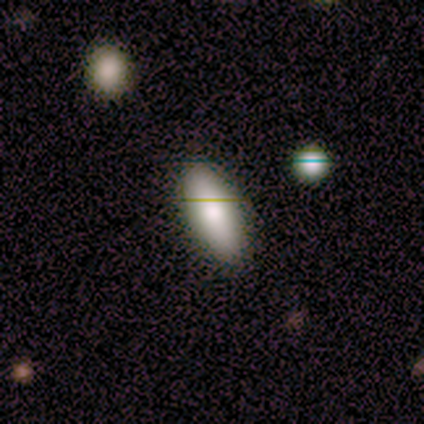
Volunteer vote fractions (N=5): Smooth or featured?
  - smooth: 80% *
  - star or artifact: 20%
  - featured or disk: 0%
How rounded?
  - in between: 100% *
  - round: 0%
  - cigar-shaped: 0%
Merging?
  - none: 100% *
  - minor disturbance: 0%
  - major disturbance: 0%
  - merger: 0%